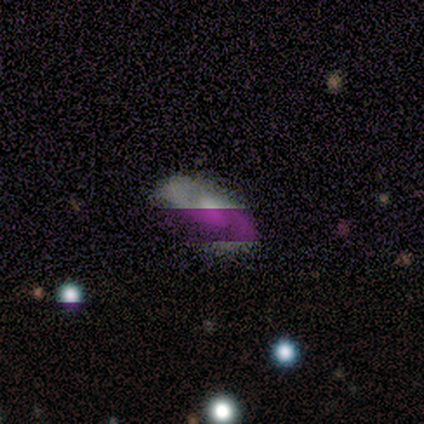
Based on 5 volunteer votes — Smooth or featured: featured or disk — 80% (smooth — 20%)
Edge-on disk: no — 100%
Bar: weak — 75% (no — 25%)
Spiral arms: yes — 100%
Spiral winding: medium — 75% (loose — 25%)
Spiral arm count: 2 — 75% (can't tell — 25%)
Bulge size: moderate — 75% (large — 25%)
Merging: none — 60% (minor disturbance — 20%)